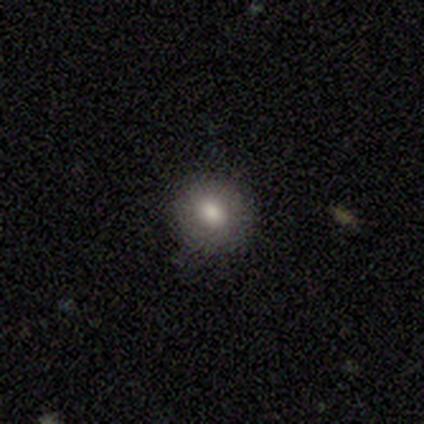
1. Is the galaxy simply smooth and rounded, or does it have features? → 100% smooth, 0% featured or disk, 0% star or artifact.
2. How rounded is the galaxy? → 100% round, 0% in between, 0% cigar-shaped.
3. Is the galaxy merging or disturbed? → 80% none, 20% minor disturbance, 0% major disturbance, 0% merger.